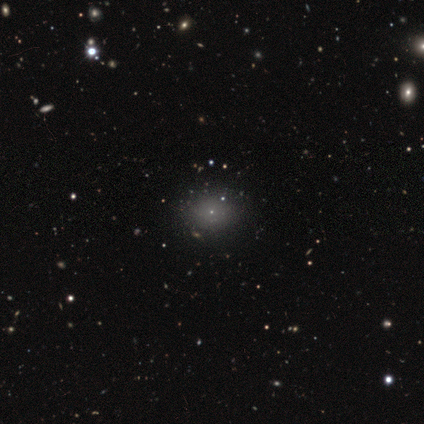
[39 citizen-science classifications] Smooth or featured: smooth — 54% (featured or disk — 23%)
How rounded: round — 62% (in between — 38%)
Merging: none — 80% (minor disturbance — 10%)